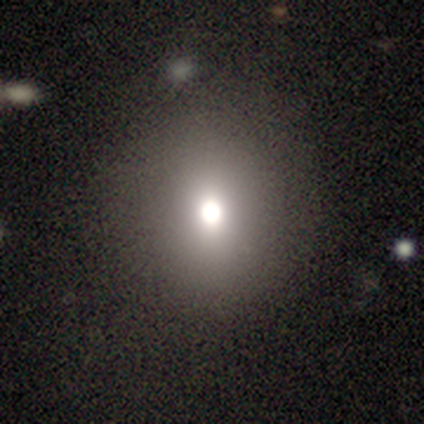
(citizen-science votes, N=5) smooth 80%, featured or disk 20%, star or artifact 0%. Down the decision tree: how rounded — round (100%); merging — none (100%).